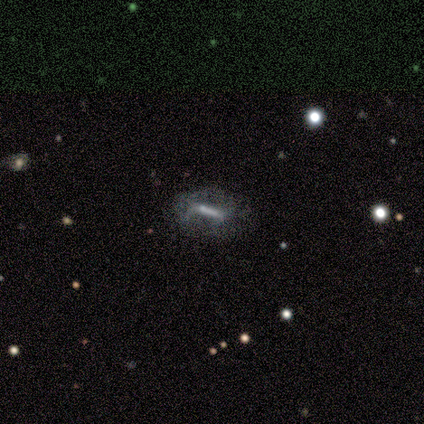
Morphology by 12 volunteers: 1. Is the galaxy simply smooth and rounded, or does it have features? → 58% featured or disk, 33% smooth, 8% star or artifact.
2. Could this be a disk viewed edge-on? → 86% no, 14% yes.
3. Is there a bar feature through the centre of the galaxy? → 50% weak, 33% strong, 17% no.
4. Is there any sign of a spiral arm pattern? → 83% no, 17% yes.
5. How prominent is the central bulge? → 83% small, 17% moderate, 0% dominant, 0% large, 0% none.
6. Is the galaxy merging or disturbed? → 64% none, 27% minor disturbance, 9% major disturbance, 0% merger.